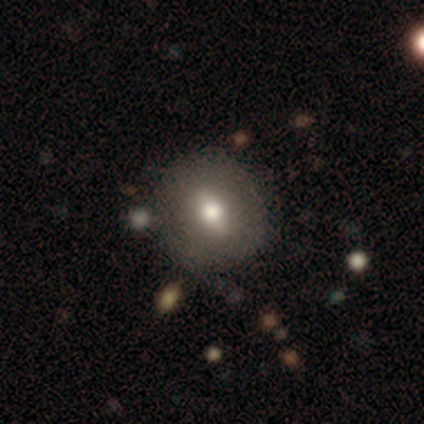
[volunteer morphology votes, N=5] smooth 60%, featured or disk 20%, star or artifact 20%. Down the decision tree: how rounded — round (67%); merging — none (75%).